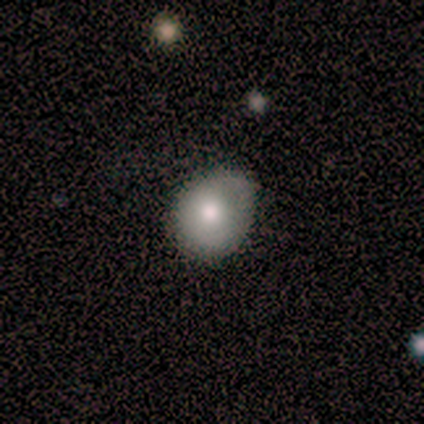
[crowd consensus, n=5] smooth_or_featured: smooth (p=0.60) [alt: featured or disk p=0.40]
how_rounded: round (p=0.67) [alt: in between p=0.33]
merging: none (p=1.00)